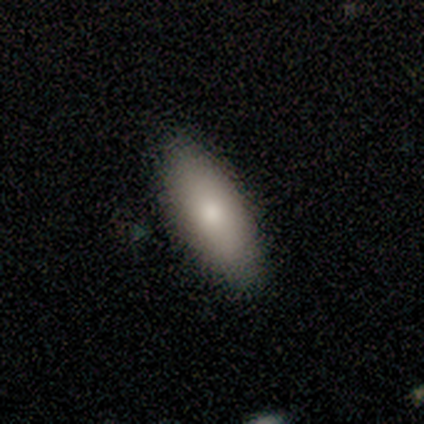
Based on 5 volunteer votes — A smooth galaxy with no disk features (60%) that is in between round and cigar-shaped (100%).

Vote fractions:
- Smooth or featured? smooth: 60% / featured or disk: 40% / star or artifact: 0%
- How rounded? in between: 100% / round: 0% / cigar-shaped: 0%
- Merging? none: 100% / minor disturbance: 0% / major disturbance: 0% / merger: 0%